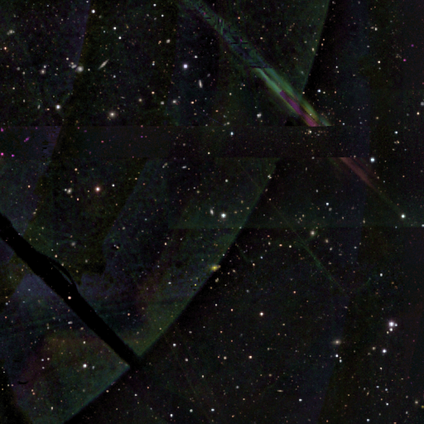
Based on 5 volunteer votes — Overall: star or artifact (80%).